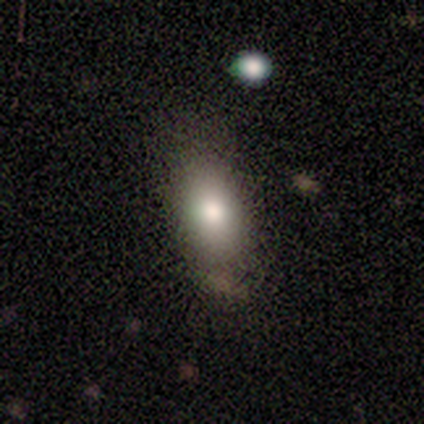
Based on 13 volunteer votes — smooth-or-featured: smooth: 85% | star or artifact: 15% | featured or disk: 0%
  how-rounded: in between: 82% | round: 18% | cigar-shaped: 0%
  merging: none: 64% | minor disturbance: 18% | merger: 18% | major disturbance: 0%